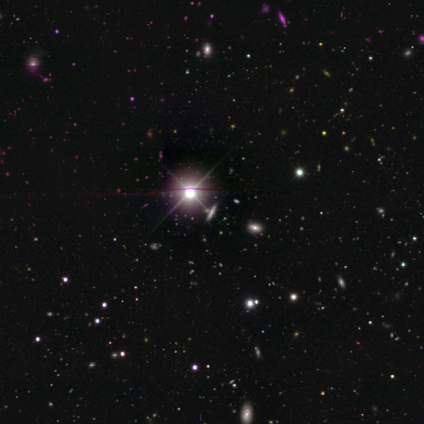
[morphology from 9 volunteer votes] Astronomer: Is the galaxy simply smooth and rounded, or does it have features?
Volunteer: star or artifact — 67%.